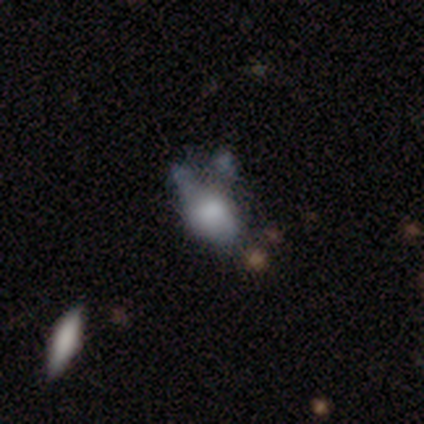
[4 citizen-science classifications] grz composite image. It shows a smooth galaxy with no disk features (50%, tied with star or artifact) that is in between round and cigar-shaped (100%). Merging: minor disturbance (50%, tied with major disturbance).